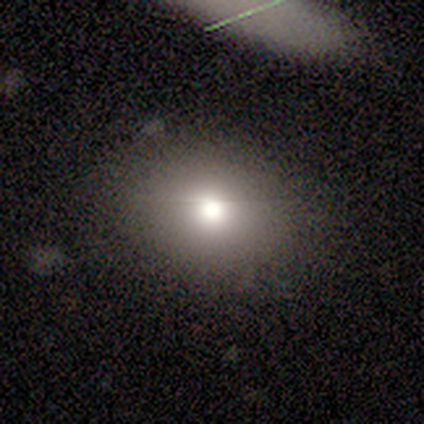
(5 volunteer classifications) smooth-or-featured: smooth: 100% | featured or disk: 0% | star or artifact: 0%
  how-rounded: in between: 60% | round: 40% | cigar-shaped: 0%
  merging: none: 80% | minor disturbance: 20% | major disturbance: 0% | merger: 0%